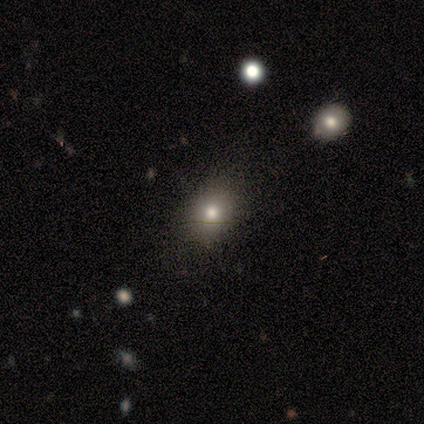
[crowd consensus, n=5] A smooth galaxy with no disk features (100%) that is round (60%).

Vote fractions:
- Smooth or featured? smooth: 100% / featured or disk: 0% / star or artifact: 0%
- How rounded? round: 60% / in between: 40% / cigar-shaped: 0%
- Merging? none: 100% / minor disturbance: 0% / major disturbance: 0% / merger: 0%